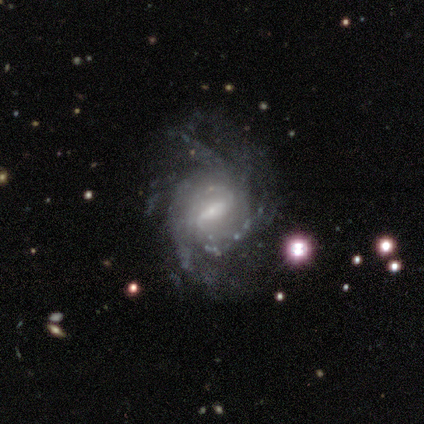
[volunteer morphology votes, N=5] featured or disk 80%, star or artifact 20%, smooth 0%. Down the decision tree: edge-on disk — no (100%); bar — strong (50%, tied with weak); spiral arms — yes (100%); spiral arm count — 3 (50%); spiral winding — tight (75%); bulge size — small (50%); merging — none (75%).